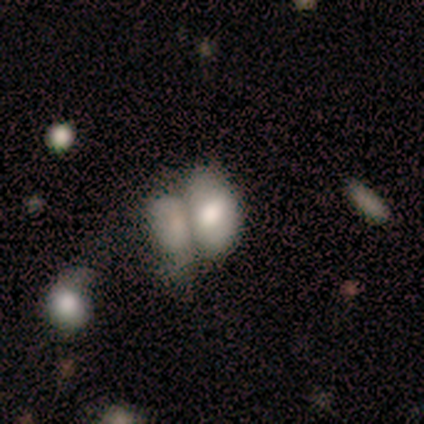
Smooth or featured? 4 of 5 (80%) said smooth. How rounded? 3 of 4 (75%) said in between. Merging? 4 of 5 (80%) said merger.